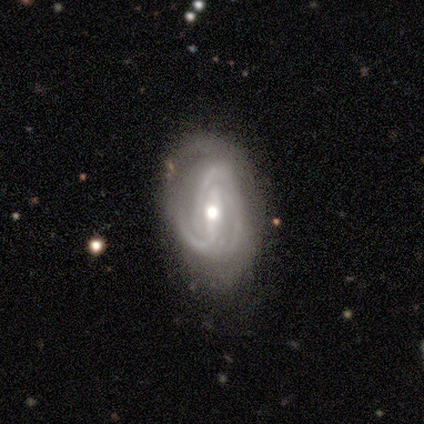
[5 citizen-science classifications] Smooth or featured: featured or disk — 100%
Edge-on disk: no — 100%
Bar: weak — 60% (strong — 40%)
Spiral arms: yes — 100%
Spiral winding: tight — 80% (medium — 20%)
Spiral arm count: 2 — 40% (tied with 3 — 40%)
Bulge size: moderate — 80% (small — 20%)
Merging: none — 100%